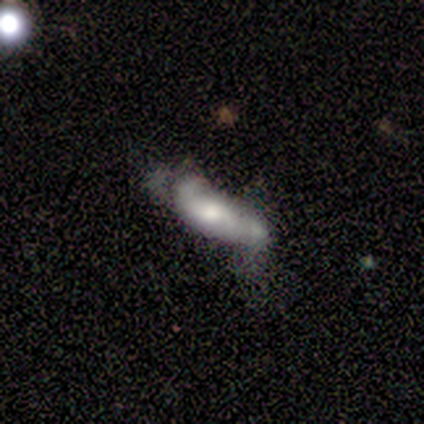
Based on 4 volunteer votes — Smooth or featured: smooth — 75% (star or artifact — 25%)
How rounded: in between — 100%
Merging: none — 33% (tied with major disturbance — 33%; merger — 33%)